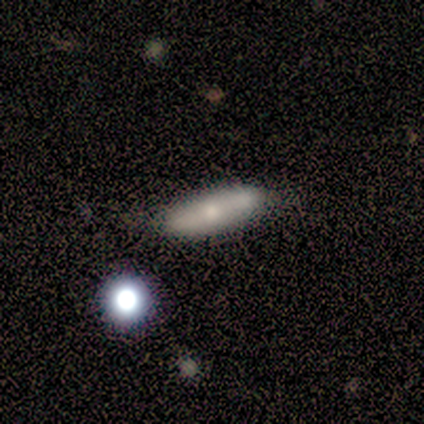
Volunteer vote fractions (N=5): This appears to be a smooth galaxy with no disk features (60%) that is in between round and cigar-shaped (67%). Merging: none (75%).